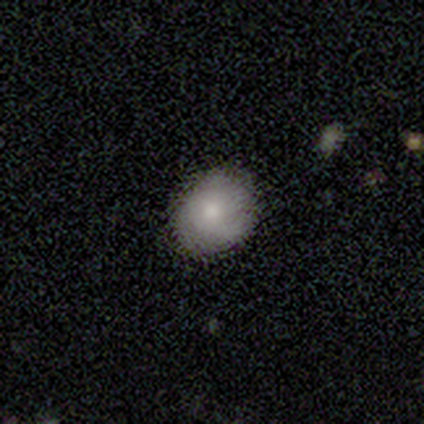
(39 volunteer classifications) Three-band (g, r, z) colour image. It shows a smooth galaxy with no disk features (59%) that is in between round and cigar-shaped (52%). Merging: none (85%).